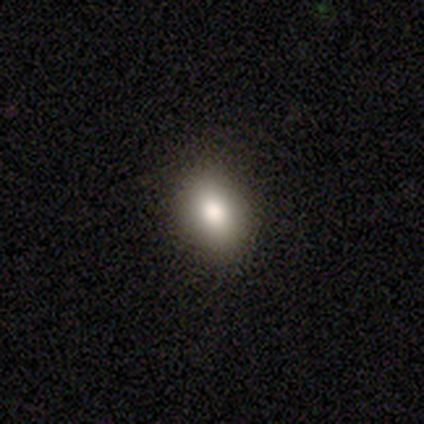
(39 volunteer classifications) This is clearly a smooth galaxy (85%). How rounded: likely in between (64%). Merging: likely none (66%).